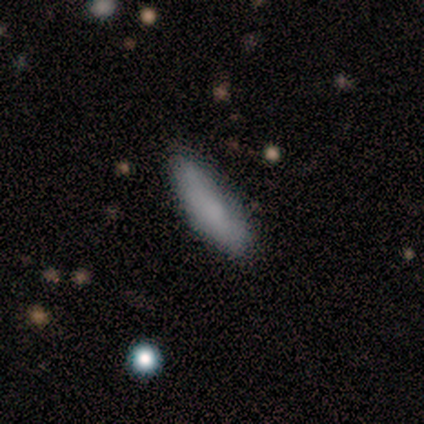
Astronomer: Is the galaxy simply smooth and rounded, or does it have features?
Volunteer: smooth — 100%.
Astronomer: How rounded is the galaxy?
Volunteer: cigar-shaped — 60% (runner-up: in between, 40%).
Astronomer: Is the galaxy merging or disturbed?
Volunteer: none — 90%.